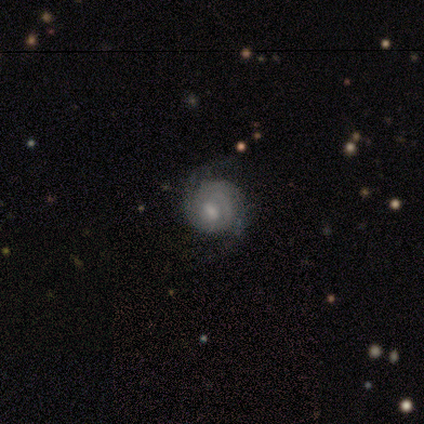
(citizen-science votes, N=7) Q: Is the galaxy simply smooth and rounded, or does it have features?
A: featured or disk — 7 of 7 (100%).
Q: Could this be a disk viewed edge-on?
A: no — 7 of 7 (100%).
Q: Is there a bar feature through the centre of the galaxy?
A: weak — 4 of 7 (57%).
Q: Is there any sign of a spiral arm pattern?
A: yes — 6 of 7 (86%).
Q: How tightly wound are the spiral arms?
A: tight — 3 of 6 (50%, tied with medium).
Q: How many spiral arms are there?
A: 2 — 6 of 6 (100%).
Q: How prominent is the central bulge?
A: moderate — 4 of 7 (57%).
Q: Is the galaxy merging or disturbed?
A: none — 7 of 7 (100%).